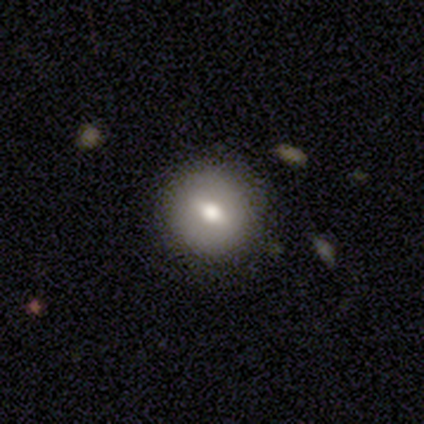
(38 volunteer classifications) smooth 66%, featured or disk 29%, star or artifact 5%. Down the decision tree: how rounded — round (88%); merging — none (86%).